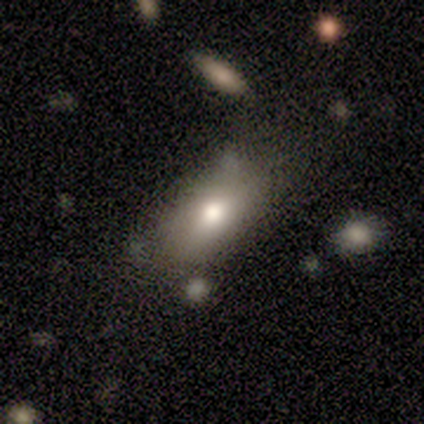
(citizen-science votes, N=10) A smooth galaxy with no disk features (80%) that is in between round and cigar-shaped (100%).

Vote fractions:
- Smooth or featured? smooth: 80% / featured or disk: 20% / star or artifact: 0%
- How rounded? in between: 100% / round: 0% / cigar-shaped: 0%
- Merging? none: 40% (tied) / minor disturbance: 40% (tied) / major disturbance: 20% / merger: 0%